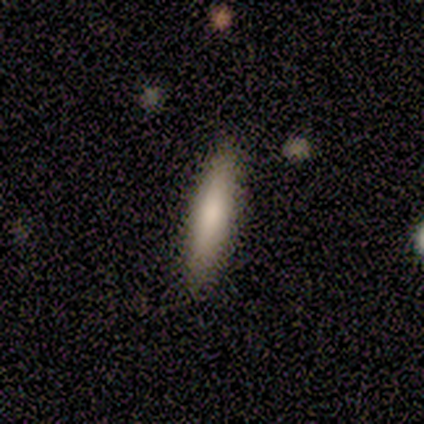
smooth_or_featured: smooth (p=0.83) [alt: star or artifact p=0.17]
how_rounded: cigar-shaped (p=0.60) [alt: in between p=0.40]
merging: none (p=0.80) [alt: minor disturbance p=0.20]